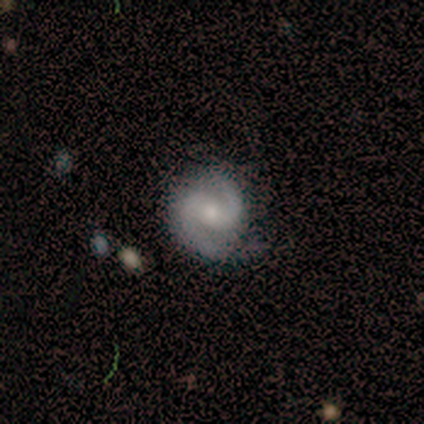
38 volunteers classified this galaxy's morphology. smooth-or-featured: featured or disk: 95% | star or artifact: 5% | smooth: 0%
  disk-edge-on: no: 97% | yes: 3%
    bar: weak: 43% | no: 34% | strong: 23%
    has-spiral-arms: yes: 100% | no: 0%
      spiral-winding: medium: 54% | tight: 29% | loose: 17%
      spiral-arm-count: 2: 94% | more than 4: 3% | can't tell: 3% | 1: 0% | 3: 0% | 4: 0%
    bulge-size: moderate: 43% (tied) | small: 43% (tied) | none: 11% | dominant: 3% | large: 0%
  merging: none: 75% | minor disturbance: 19% | major disturbance: 3% | merger: 3%